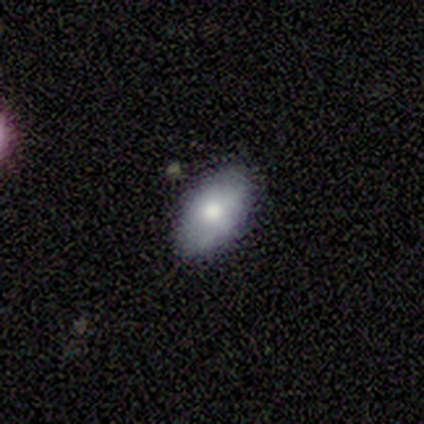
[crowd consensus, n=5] smooth_or_featured: smooth (p=0.80) [alt: featured or disk p=0.20]
how_rounded: in between (p=1.00)
merging: none (p=1.00)